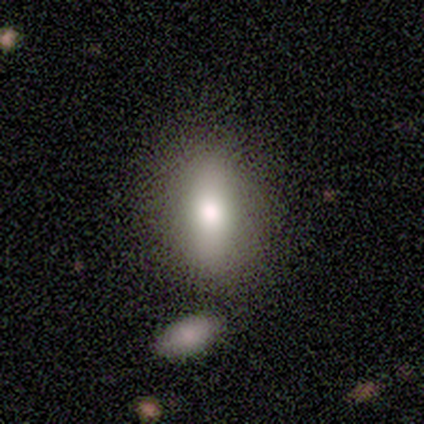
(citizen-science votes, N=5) Smooth or featured? smooth (100%)
How rounded? in between (80%)
Merging? none (100%)